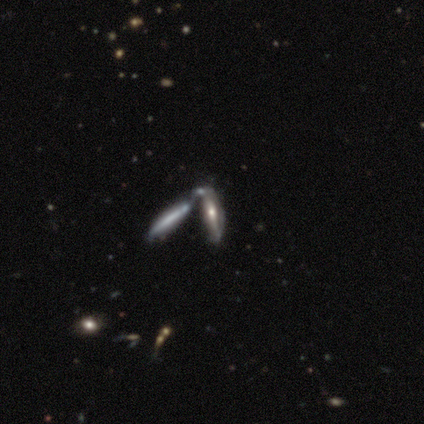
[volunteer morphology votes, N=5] Overall: featured or disk (60%; smooth 40%). Edge-on disk: yes (100%). Edge-on bulge: rounded (100%). Merging: merger (80%).